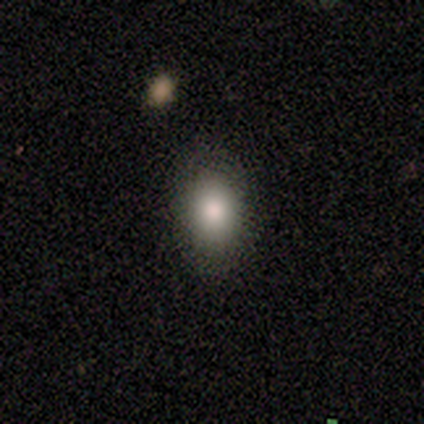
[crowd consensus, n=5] A smooth galaxy with no disk features (80%) that is in between round and cigar-shaped (100%). Merging: none (100%).